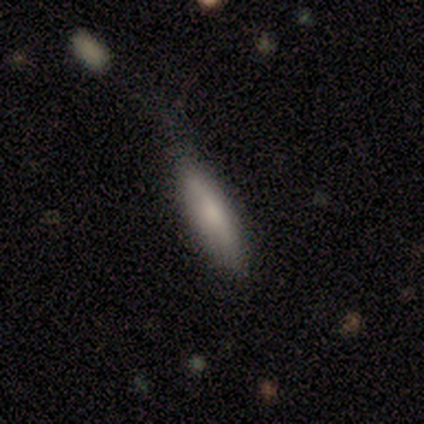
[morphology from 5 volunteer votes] Smooth or featured?
  - smooth: 60% *
  - star or artifact: 40%
  - featured or disk: 0%
How rounded?
  - cigar-shaped: 100% *
  - round: 0%
  - in between: 0%
Merging?
  - none: 100% *
  - minor disturbance: 0%
  - major disturbance: 0%
  - merger: 0%